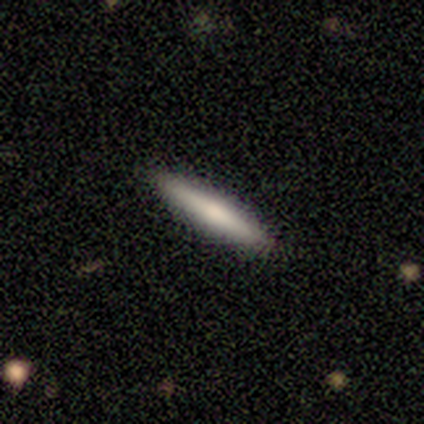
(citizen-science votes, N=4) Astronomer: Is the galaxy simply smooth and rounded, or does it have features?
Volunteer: smooth — 50%, tied with featured or disk at 50%.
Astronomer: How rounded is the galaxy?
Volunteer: cigar-shaped — 100%.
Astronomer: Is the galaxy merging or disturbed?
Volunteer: none — 100%.